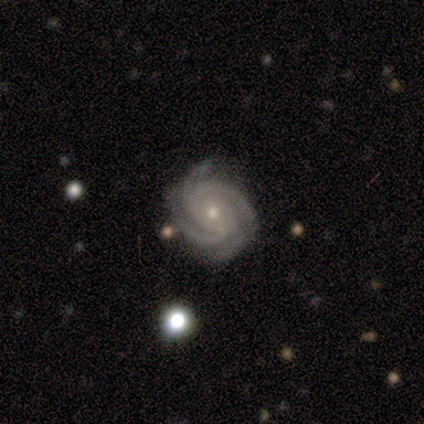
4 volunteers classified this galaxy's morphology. This appears to be a featured or disk galaxy (100%) with no bar (75%), 3 (50%, tied with 4) tight (75%) spiral arms (100%) and a small central bulge (100%). Merging: none (75%).